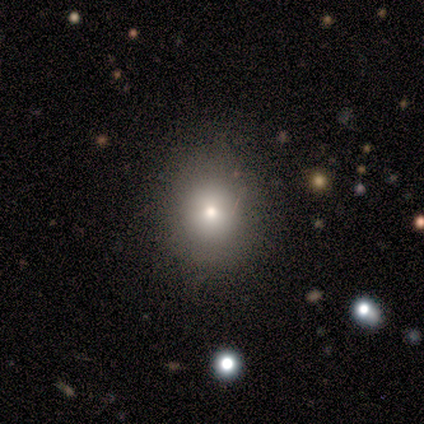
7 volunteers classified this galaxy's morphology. smooth 86%, star or artifact 14%, featured or disk 0%. Down the decision tree: how rounded — round (83%); merging — none (83%).